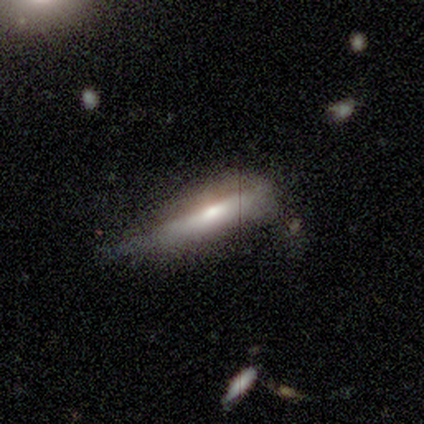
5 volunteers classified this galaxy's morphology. Overall: featured or disk (60%; smooth 40%). Edge-on disk: yes (100%). Edge-on bulge: rounded (67%; boxy 33%). Merging: none (100%).